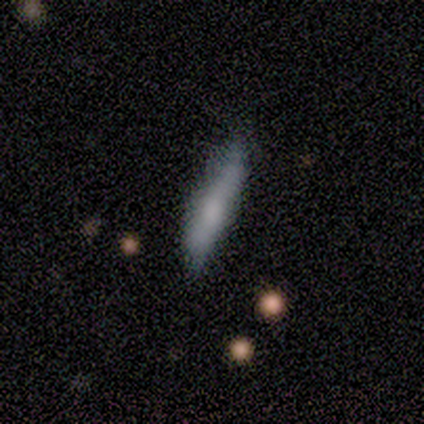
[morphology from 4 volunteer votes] smooth 75%, featured or disk 25%, star or artifact 0%. Down the decision tree: how rounded — cigar-shaped (67%); merging — minor disturbance (75%).